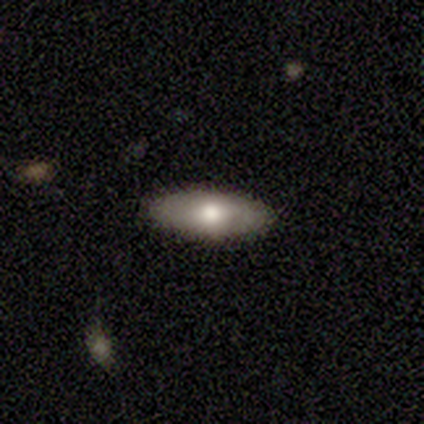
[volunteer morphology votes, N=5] Smooth or featured? 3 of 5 (60%) said smooth. How rounded? 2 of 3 (67%) said cigar-shaped. Merging? 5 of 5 (100%) said none.